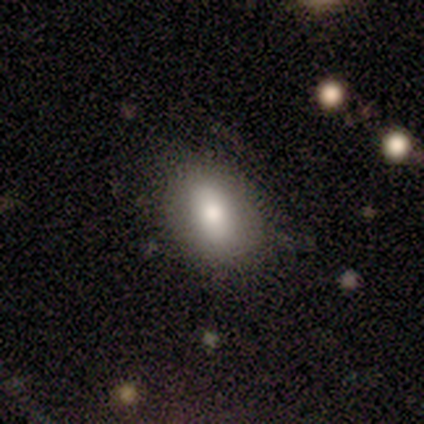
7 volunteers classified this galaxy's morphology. Smooth or featured? featured or disk (57%)
Edge-on disk? no (100%)
Bar? weak (50%, tied with no)
Spiral arms? no (100%)
Bulge size? moderate (50%)
Merging? none (100%)